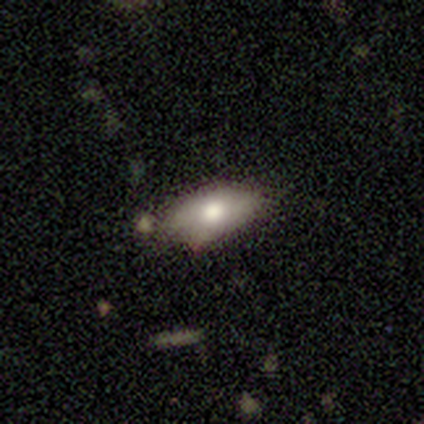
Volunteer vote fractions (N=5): Volunteers were most divided on "merging": none: 60%, minor disturbance: 20%, merger: 20%, major disturbance: 0%. More confident: how rounded — in between (100%); smooth or featured — smooth (80%).